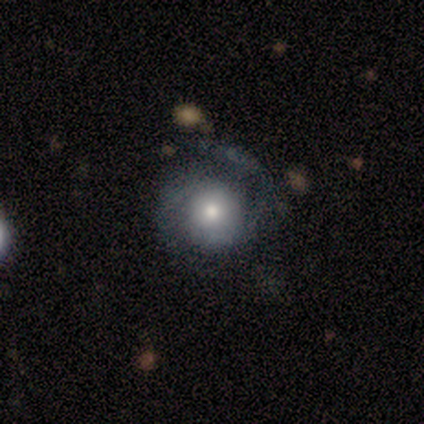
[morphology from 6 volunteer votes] A featured or disk galaxy (100%) with no bar (100%), 2 (80%) medium (80%) spiral arms (100%) and a small central bulge (60%). Merging: none (67%).